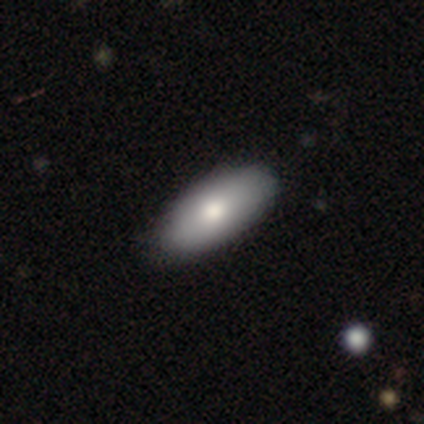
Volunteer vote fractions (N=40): This is likely a smooth galaxy (70%). How rounded: clearly in between (86%). Merging: possibly none (53%).